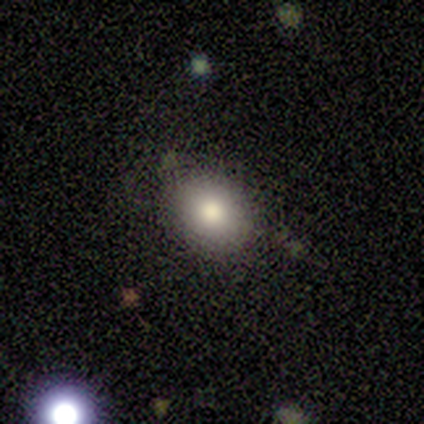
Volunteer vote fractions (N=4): Smooth or featured? 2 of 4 (50%, tied with featured or disk) said smooth. How rounded? 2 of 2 (100%) said in between. Merging? 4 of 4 (100%) said none.